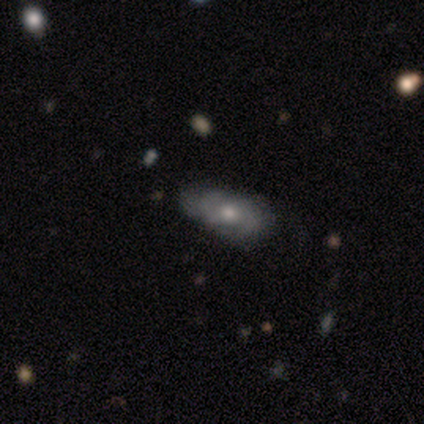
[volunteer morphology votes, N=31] smooth_or_featured: featured or disk (p=0.55) [alt: smooth p=0.32]
disk_edge_on: no (p=1.00)
bar: no (p=0.76) [alt: weak p=0.24]
has_spiral_arms: yes (p=0.94) [alt: no p=0.06]
spiral_winding: medium (p=0.44) [alt: tight p=0.38]
spiral_arm_count: 2 (p=0.69) [alt: can't tell p=0.25]
bulge_size: moderate (p=0.76) [alt: small p=0.18]
merging: none (p=0.63) [alt: minor disturbance p=0.26]